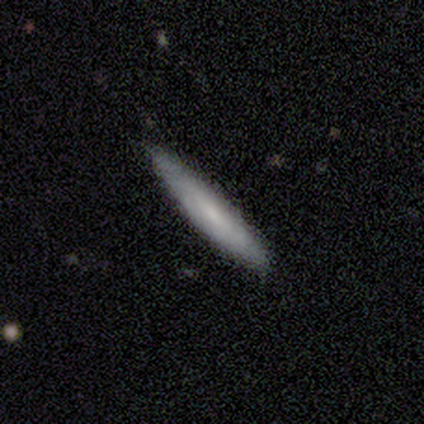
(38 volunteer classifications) smooth-or-featured: smooth: 50% | featured or disk: 42% | star or artifact: 8%
  how-rounded: cigar-shaped: 79% | in between: 16% | round: 5%
  merging: none: 74% | minor disturbance: 20% | major disturbance: 3% | merger: 3%